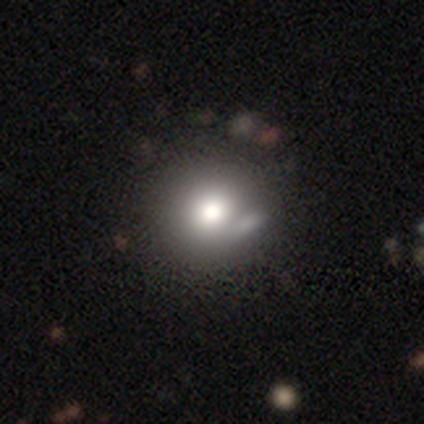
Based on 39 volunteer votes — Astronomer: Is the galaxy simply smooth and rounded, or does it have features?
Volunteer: smooth — 74%.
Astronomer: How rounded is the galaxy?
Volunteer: round — 93%.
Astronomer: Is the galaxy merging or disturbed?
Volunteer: none — 43% (runner-up: merger, 20%).